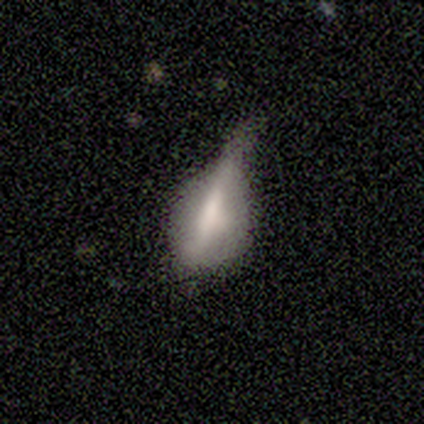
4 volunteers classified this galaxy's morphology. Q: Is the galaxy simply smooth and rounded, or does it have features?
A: smooth — 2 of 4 (50%).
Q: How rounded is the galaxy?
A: in between — 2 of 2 (100%).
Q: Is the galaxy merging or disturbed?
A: none — 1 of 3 (33%, tied with minor disturbance and major disturbance).